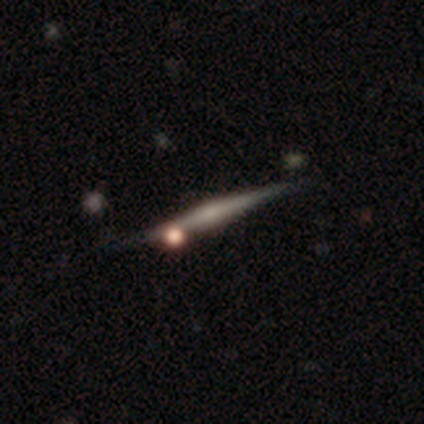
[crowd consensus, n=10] Smooth or featured? featured or disk (80%)
Edge-on disk? yes (100%)
Edge-on bulge? rounded (50%)
Merging? none (80%)